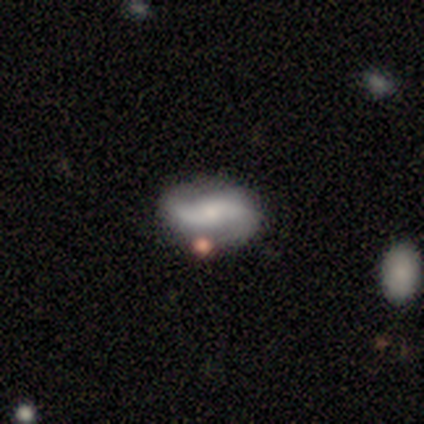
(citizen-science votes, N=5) featured or disk 80%, smooth 20%, star or artifact 0%. Down the decision tree: edge-on disk — no (100%); bar — no (50%); spiral arms — yes (100%); spiral arm count — 2 (100%); spiral winding — loose (75%); bulge size — small (50%); merging — none (80%).